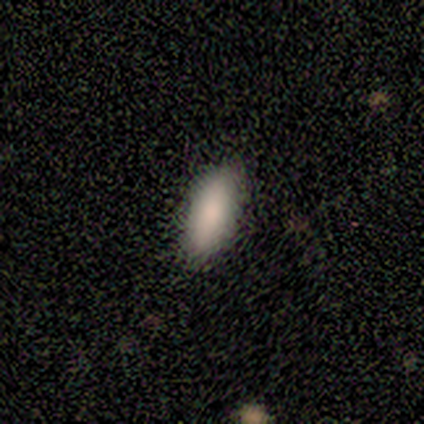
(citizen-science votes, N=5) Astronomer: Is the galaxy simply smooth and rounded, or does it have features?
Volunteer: smooth — 80%.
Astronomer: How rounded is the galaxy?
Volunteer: in between — 50%, tied with cigar-shaped at 50%.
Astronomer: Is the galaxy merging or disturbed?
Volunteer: none — 80%.